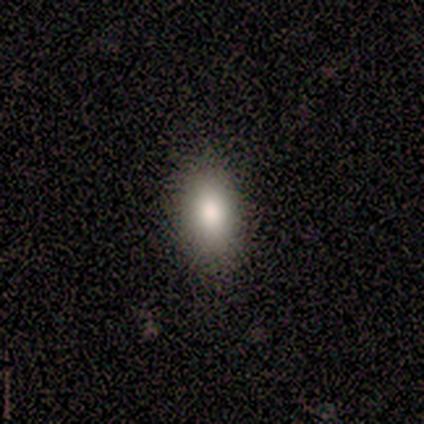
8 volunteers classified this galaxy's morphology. smooth-or-featured: smooth: 88% | featured or disk: 12% | star or artifact: 0%
  how-rounded: in between: 86% | round: 14% | cigar-shaped: 0%
  merging: none: 88% | minor disturbance: 12% | major disturbance: 0% | merger: 0%